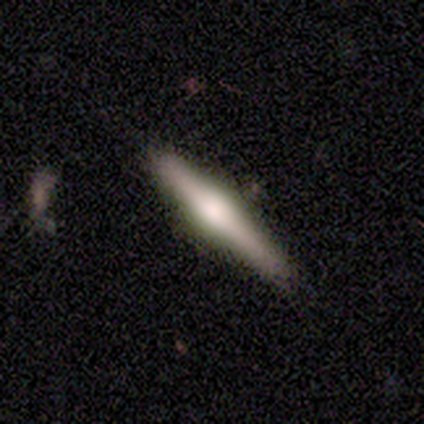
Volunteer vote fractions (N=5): Smooth or featured: smooth — 60% (featured or disk — 40%)
How rounded: cigar-shaped — 100%
Merging: none — 80% (minor disturbance — 20%)